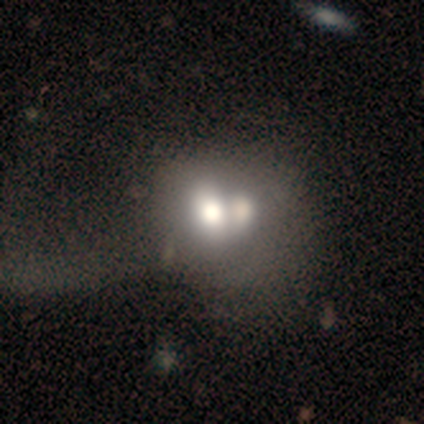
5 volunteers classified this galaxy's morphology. Smooth or featured? 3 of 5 (60%) said featured or disk. Edge-on disk? 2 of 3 (67%) said no. Bar? 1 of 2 (50%, tied with no) said weak. Spiral arms? 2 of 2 (100%) said no. Bulge size? 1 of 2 (50%, tied with moderate) said large. Merging? 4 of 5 (80%) said merger.